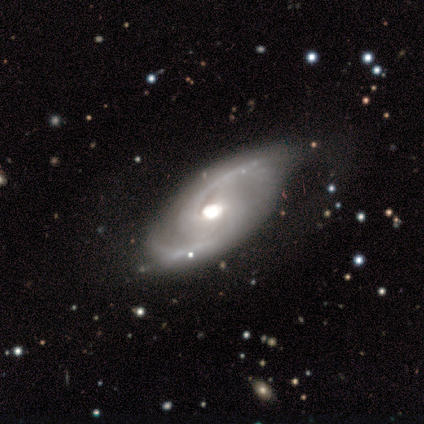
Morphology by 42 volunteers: Overall: featured or disk (100%). Edge-on disk: no (98%). Bar: no (63%; weak 29%). Spiral arms: yes (98%). Spiral arm count: 2 (95%). Spiral winding: medium (65%). Bulge size: large (59%; moderate 32%). Merging: none (57%; minor disturbance 29%).